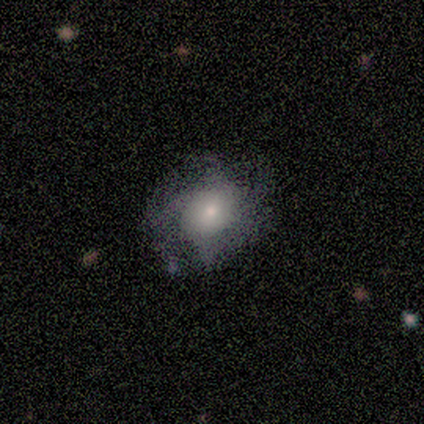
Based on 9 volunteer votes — Smooth or featured: featured or disk — 89% (star or artifact — 11%)
Edge-on disk: no — 100%
Bar: no — 88% (strong — 12%)
Spiral arms: yes — 88% (no — 12%)
Spiral winding: tight — 71% (medium — 14%)
Spiral arm count: can't tell — 43% (4 — 29%)
Bulge size: small — 50% (moderate — 25%)
Merging: none — 62% (major disturbance — 25%)